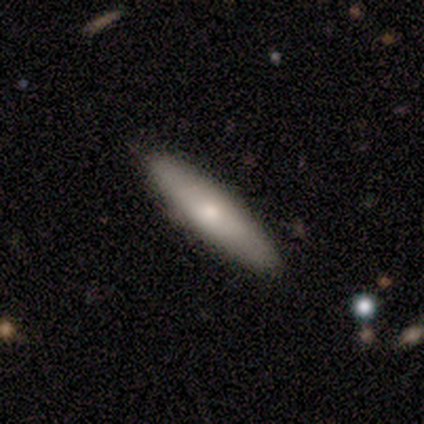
This is likely a smooth galaxy (75%). How rounded: likely cigar-shaped (67%). Merging: likely none (62%).